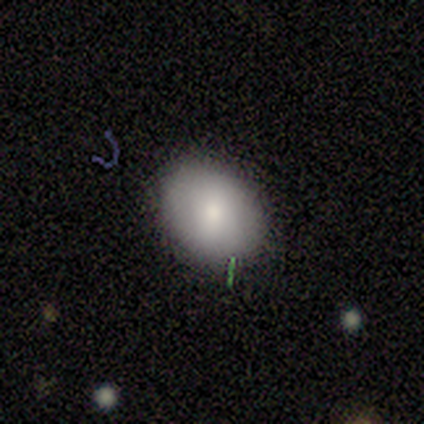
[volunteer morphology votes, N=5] Volunteers were most divided on "how rounded": in between: 75%, round: 25%, cigar-shaped: 0%. More confident: merging — none (100%); smooth or featured — smooth (80%).